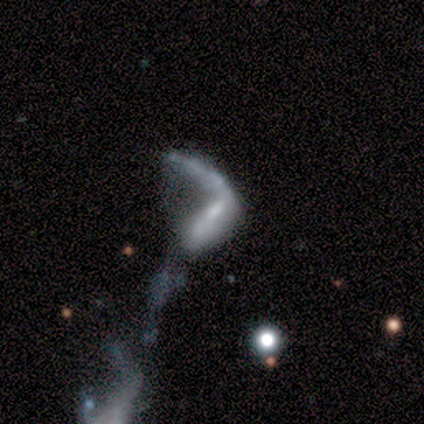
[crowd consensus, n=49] Smooth or featured? 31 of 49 (63%) said featured or disk. Edge-on disk? 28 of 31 (90%) said no. Bar? 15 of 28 (54%) said no. Spiral arms? 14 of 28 (50%, tied with no) said yes. Spiral winding? 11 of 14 (79%) said loose. Spiral arm count? 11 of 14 (79%) said 1. Bulge size? 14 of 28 (50%) said none. Merging? 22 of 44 (50%) said merger.